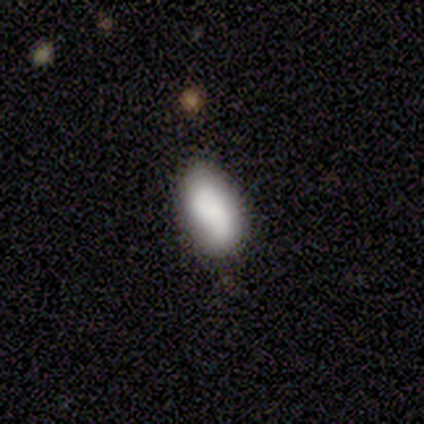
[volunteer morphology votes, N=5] Smooth or featured: smooth — 100%
How rounded: in between — 100%
Merging: minor disturbance — 60% (none — 40%)